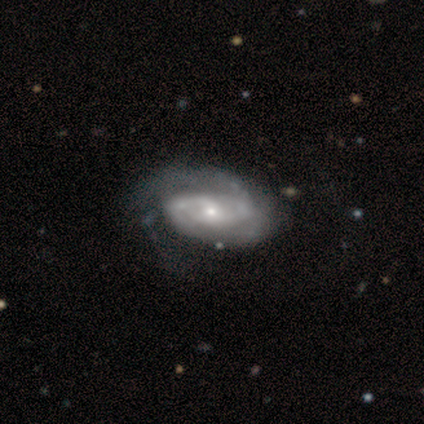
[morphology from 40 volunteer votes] This is clearly a featured or disk galaxy (100%). It is clearly not viewed edge-on (98%). Bar: likely no (69%). Spiral arm pattern: clearly yes (90%). Spiral arm count: possibly 2 (54%). Spiral winding: possibly medium (49%). Central bulge: possibly small (59%). Merging: marginally none (30%).